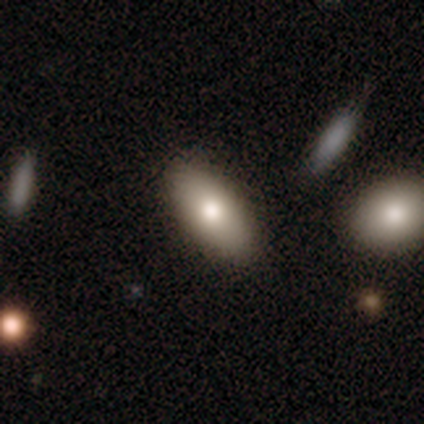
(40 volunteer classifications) Smooth or featured? smooth (78%)
How rounded? in between (87%)
Merging? none (80%)